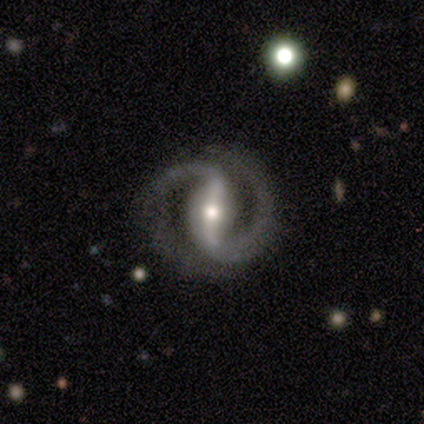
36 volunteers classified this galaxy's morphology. featured or disk 92%, smooth 6%, star or artifact 3%. Down the decision tree: edge-on disk — no (97%); bar — strong (88%); spiral arms — yes (100%); spiral arm count — 2 (100%); spiral winding — medium (50%); bulge size — moderate (69%); merging — none (80%).